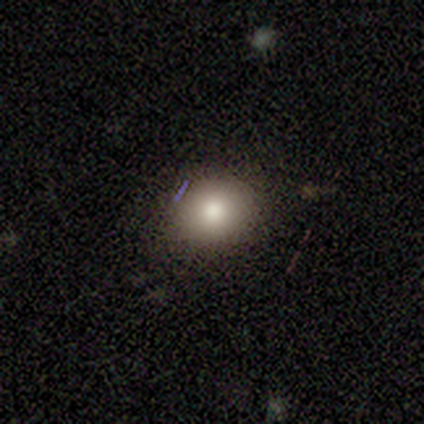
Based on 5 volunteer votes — A smooth galaxy with no disk features (100%) that is round (100%).

Vote fractions:
- Smooth or featured? smooth: 100% / featured or disk: 0% / star or artifact: 0%
- How rounded? round: 100% / in between: 0% / cigar-shaped: 0%
- Merging? none: 100% / minor disturbance: 0% / major disturbance: 0% / merger: 0%